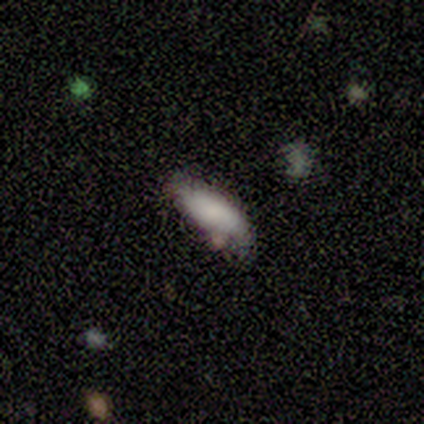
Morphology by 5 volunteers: This appears to be a smooth galaxy with no disk features (80%) that is in between round and cigar-shaped (50%, tied with cigar-shaped). Merging: none (75%).